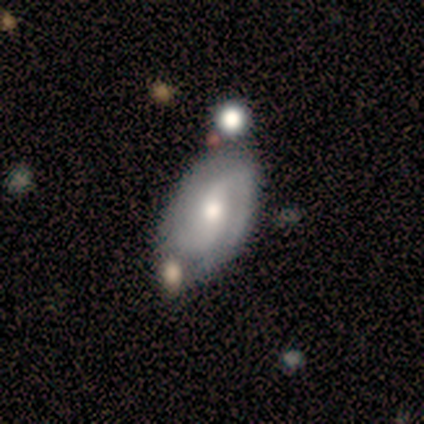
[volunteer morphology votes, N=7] A featured or disk galaxy (71%) with a weak bar (75%), 2 (75%) medium (50%) spiral arms (100%) and a moderate central bulge (75%). Merging: none (100%).